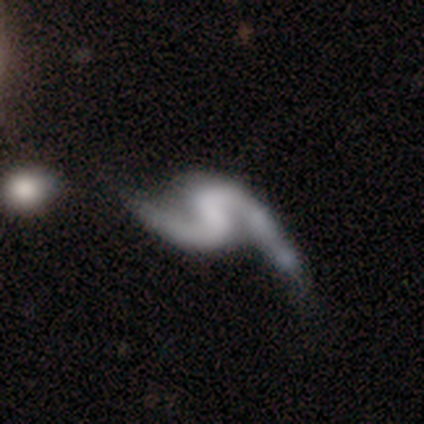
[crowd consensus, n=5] Morphology: type=featured or disk (100%); edge-on=no (100%); bar=strong (40%, tied with weak); spiral arms=yes (100%); winding=loose (80%); arm count=2 (80%); bulge=none (80%); merging=none (80%).